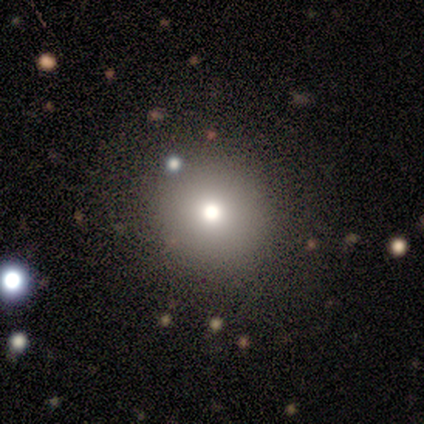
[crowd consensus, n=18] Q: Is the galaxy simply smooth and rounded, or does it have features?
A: smooth — 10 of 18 (56%).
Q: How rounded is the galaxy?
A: round — 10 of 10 (100%).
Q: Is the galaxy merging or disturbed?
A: none — 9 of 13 (69%).